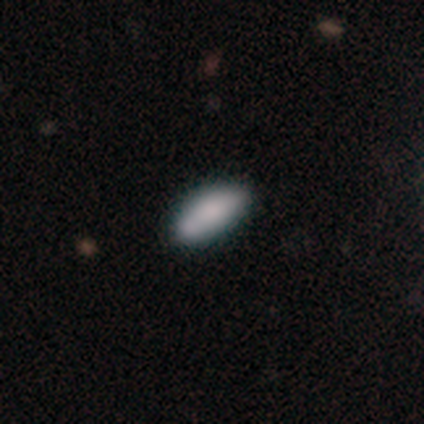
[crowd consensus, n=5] Smooth or featured: smooth — 80% (featured or disk — 20%)
How rounded: in between — 100%
Merging: none — 40% (minor disturbance — 20%)